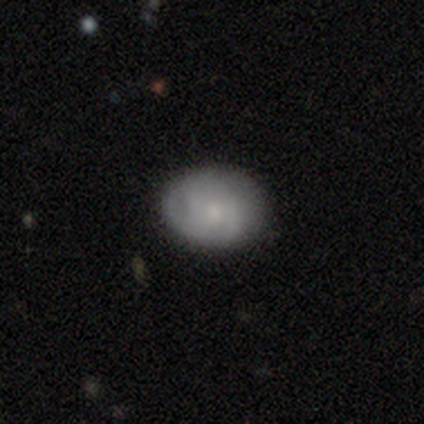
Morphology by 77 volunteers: Smooth or featured? smooth (56%)
How rounded? in between (63%)
Merging? none (45%)